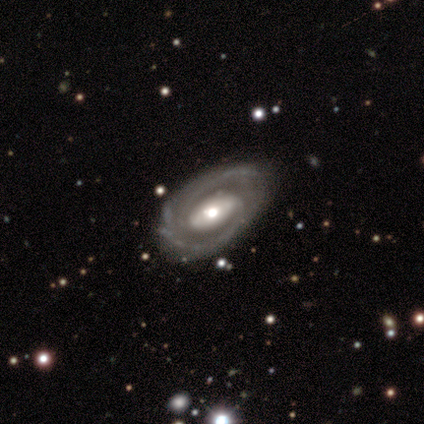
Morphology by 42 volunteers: smooth_or_featured: featured or disk (p=0.90) [alt: smooth p=0.05]
disk_edge_on: no (p=0.92) [alt: yes p=0.08]
bar: weak (p=0.40) [tied with: no p=0.40]
has_spiral_arms: yes (p=0.89) [alt: no p=0.11]
spiral_winding: tight (p=0.68) [alt: medium p=0.29]
spiral_arm_count: 2 (p=0.52) [alt: can't tell p=0.26]
bulge_size: moderate (p=0.66) [alt: small p=0.23]
merging: none (p=0.78) [alt: minor disturbance p=0.20]